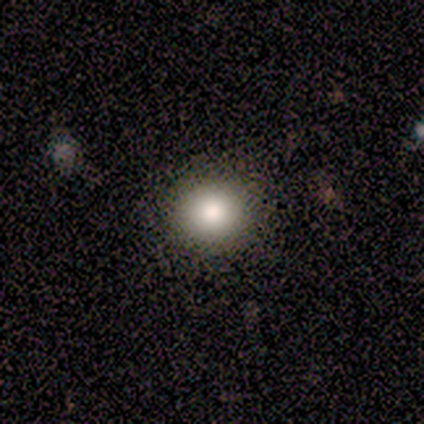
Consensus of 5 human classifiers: Volunteers were most divided on "merging": none: 80%, minor disturbance: 20%, major disturbance: 0%, merger: 0%. More confident: smooth or featured — smooth (100%); how rounded — round (100%).